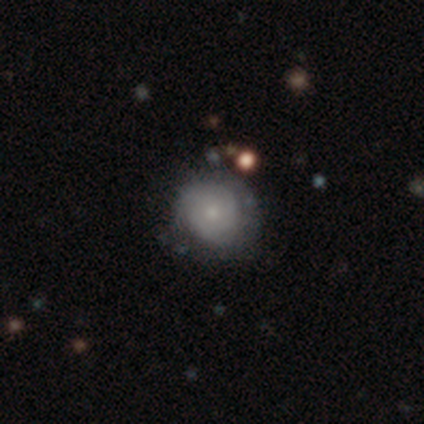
Smooth or featured?
  - featured or disk: 51% *
  - smooth: 38%
  - star or artifact: 10%
Edge-on disk?
  - no: 90% *
  - yes: 10%
Bar?
  - no: 94% *
  - weak: 6%
  - strong: 0%
Spiral arms?
  - yes: 50% * (tied)
  - no: 50% * (tied)
Spiral winding?
  - tight: 100% *
  - medium: 0%
  - loose: 0%
Spiral arm count?
  - can't tell: 67% *
  - 2: 22%
  - 3: 11%
  - 1: 0%
  - 4: 0%
  - more than 4: 0%
Bulge size?
  - small: 72% *
  - moderate: 22%
  - large: 6%
  - dominant: 0%
  - none: 0%
Merging?
  - none: 83% *
  - minor disturbance: 14%
  - merger: 3%
  - major disturbance: 0%